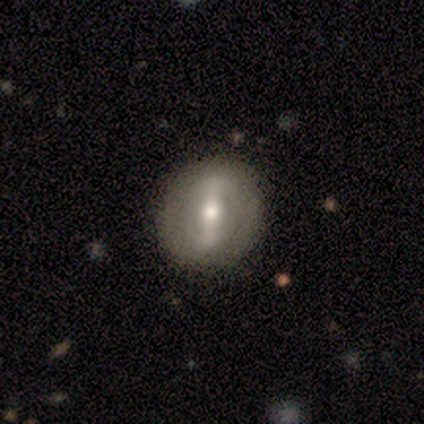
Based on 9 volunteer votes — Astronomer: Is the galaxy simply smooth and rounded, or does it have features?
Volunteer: featured or disk — 78%.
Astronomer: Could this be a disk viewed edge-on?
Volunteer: no — 86%.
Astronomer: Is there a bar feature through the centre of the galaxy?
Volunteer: strong — 67%.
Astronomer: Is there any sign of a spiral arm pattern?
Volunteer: no — 83%.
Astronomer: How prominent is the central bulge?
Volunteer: moderate — 67%.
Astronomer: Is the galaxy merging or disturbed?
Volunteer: none — 75%.